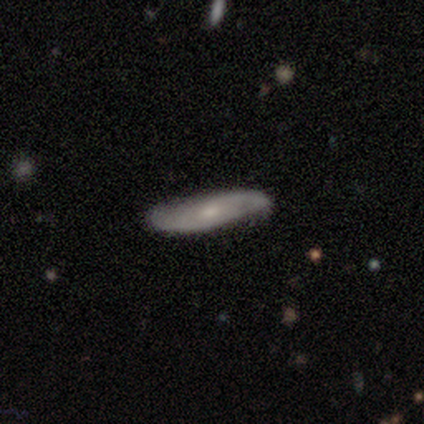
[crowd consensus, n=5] smooth_or_featured: featured or disk (p=0.60) [alt: smooth p=0.40]
disk_edge_on: no (p=1.00)
bar: no (p=1.00)
has_spiral_arms: yes (p=1.00)
spiral_winding: tight (p=0.67) [alt: loose p=0.33]
spiral_arm_count: can't tell (p=0.67) [alt: 2 p=0.33]
bulge_size: small (p=0.67) [alt: moderate p=0.33]
merging: none (p=0.60) [alt: minor disturbance p=0.40]